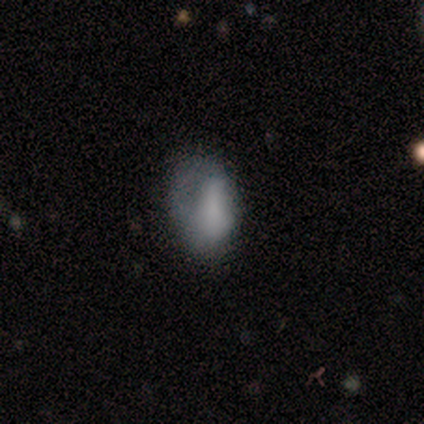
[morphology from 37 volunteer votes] smooth_or_featured: smooth (p=0.62) [alt: featured or disk p=0.27]
how_rounded: in between (p=0.91) [alt: cigar-shaped p=0.09]
merging: major disturbance (p=0.45) [alt: none p=0.30]